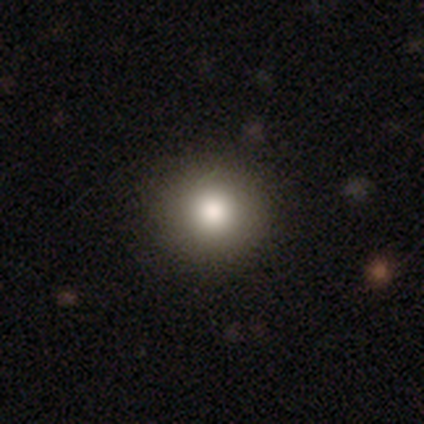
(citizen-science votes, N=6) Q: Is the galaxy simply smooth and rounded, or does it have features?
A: smooth — 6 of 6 (100%).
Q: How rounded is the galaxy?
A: round — 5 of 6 (83%).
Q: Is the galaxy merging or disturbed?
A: none — 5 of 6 (83%).